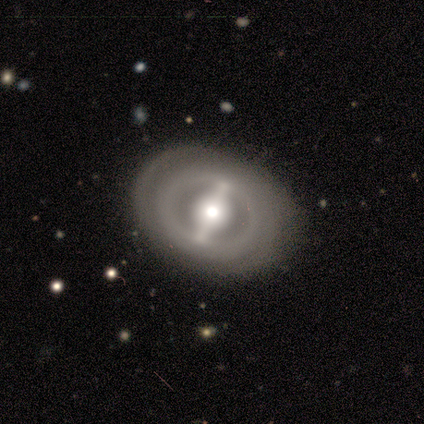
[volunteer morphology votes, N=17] smooth_or_featured: featured or disk (p=0.88) [alt: smooth p=0.12]
disk_edge_on: no (p=1.00)
bar: strong (p=0.87) [alt: weak p=0.07]
has_spiral_arms: no (p=0.53) [alt: yes p=0.47]
bulge_size: moderate (p=0.87) [alt: dominant p=0.07]
merging: none (p=0.88) [alt: minor disturbance p=0.12]